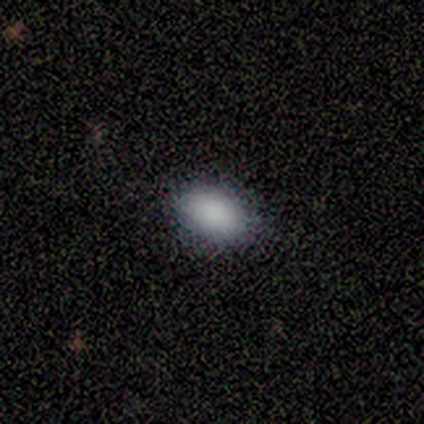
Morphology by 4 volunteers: Smooth or featured? smooth (100%)
How rounded? in between (75%)
Merging? none (75%)